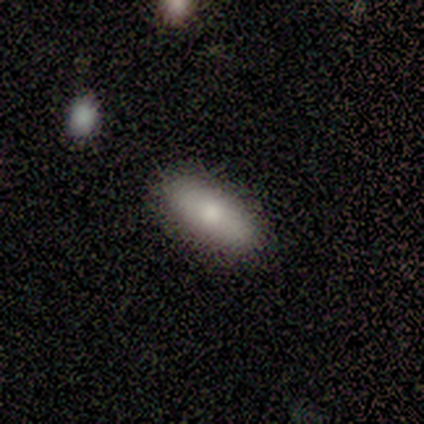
Overall: smooth (80%). How rounded: in between (50%, tied with cigar-shaped). Merging: none (80%).